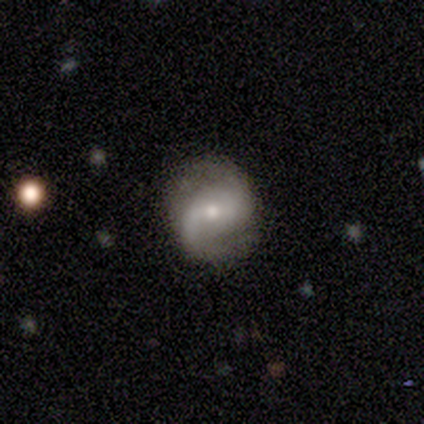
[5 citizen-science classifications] A featured or disk galaxy (100%) with a weak bar (80%), 2 (60%) loose (60%) spiral arms (100%) and a small central bulge (100%).

Vote fractions:
- Smooth or featured? featured or disk: 100% / smooth: 0% / star or artifact: 0%
- Edge-on disk? no: 100% / yes: 0%
- Bar? weak: 80% / no: 20% / strong: 0%
- Spiral arms? yes: 100% / no: 0%
- Spiral winding? loose: 60% / medium: 40% / tight: 0%
- Spiral arm count? 2: 60% / 1: 20% / can't tell: 20% / 3: 0% / 4: 0% / more than 4: 0%
- Bulge size? small: 100% / dominant: 0% / large: 0% / moderate: 0% / none: 0%
- Merging? none: 100% / minor disturbance: 0% / major disturbance: 0% / merger: 0%